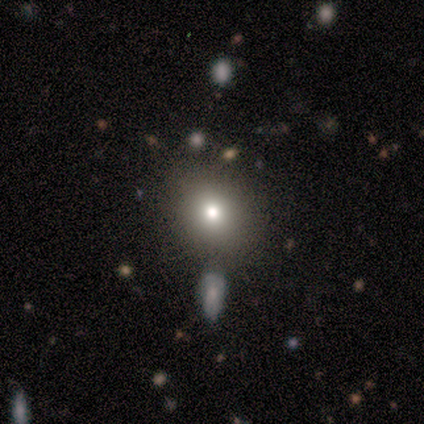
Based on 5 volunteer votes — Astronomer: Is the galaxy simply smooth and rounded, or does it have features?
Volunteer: smooth — 60%.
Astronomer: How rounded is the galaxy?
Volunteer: round — 100%.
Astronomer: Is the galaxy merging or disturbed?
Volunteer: none — 75%.